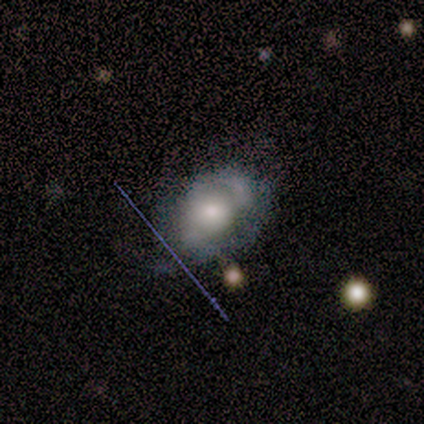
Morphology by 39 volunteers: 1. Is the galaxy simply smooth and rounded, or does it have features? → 62% featured or disk, 36% smooth, 3% star or artifact.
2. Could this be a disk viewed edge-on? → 83% no, 17% yes.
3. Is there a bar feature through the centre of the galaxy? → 75% no, 20% weak, 5% strong.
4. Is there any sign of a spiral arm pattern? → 65% yes, 35% no.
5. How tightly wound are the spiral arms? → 46% tight, 38% medium, 15% loose.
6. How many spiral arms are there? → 54% can't tell, 46% 2, 0% 1, 0% 3, 0% 4, 0% more than 4.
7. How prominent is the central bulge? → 55% moderate, 35% large, 10% small, 0% dominant, 0% none.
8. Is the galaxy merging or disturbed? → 50% none, 32% minor disturbance, 11% major disturbance, 8% merger.